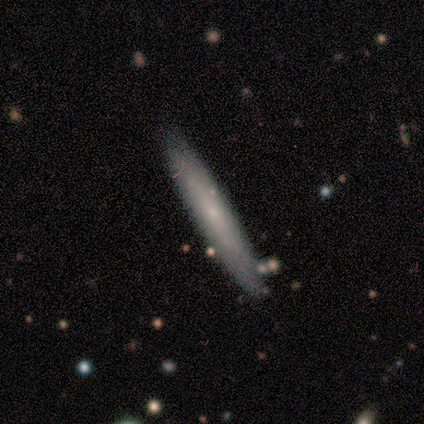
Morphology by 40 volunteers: Q: Smooth or featured?
A: smooth (48%); runner-up: featured or disk (42%)
Q: How rounded?
A: cigar-shaped (100%)
Q: Merging?
A: none (89%); runner-up: minor disturbance (8%)